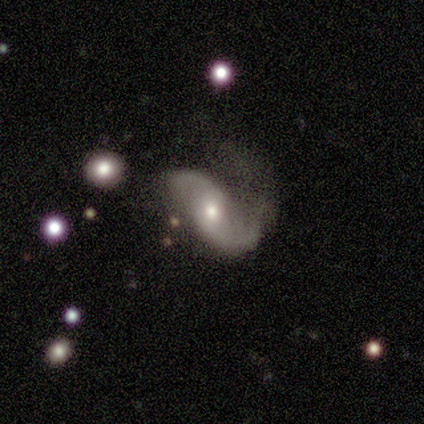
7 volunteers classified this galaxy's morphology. Overall: featured or disk (100%). Edge-on disk: no (100%). Bar: no (57%; weak 29%). Spiral arms: yes (100%). Spiral arm count: 2 (71%). Spiral winding: loose (100%). Bulge size: moderate (57%; none 29%). Merging: none (57%; major disturbance 29%).